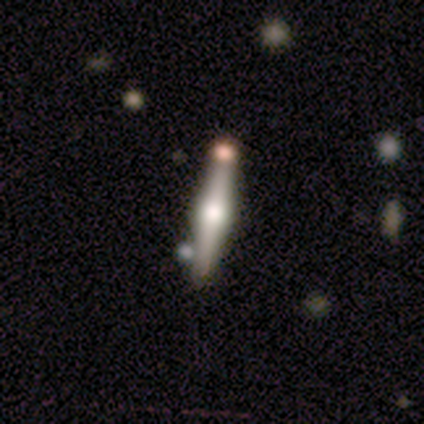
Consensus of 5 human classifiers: featured or disk 80%, smooth 20%, star or artifact 0%. Down the decision tree: edge-on disk — yes (100%); edge-on bulge — rounded (100%); merging — none (100%).